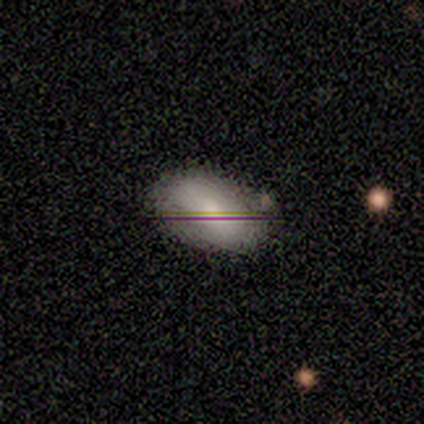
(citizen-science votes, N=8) Q: Smooth or featured?
A: featured or disk (38%); tied with: star or artifact (38%)
Q: Edge-on disk?
A: no (100%)
Q: Bar?
A: strong (33%); tied with: weak (33%); no (33%)
Q: Spiral arms?
A: yes (67%); runner-up: no (33%)
Q: Spiral winding?
A: tight (50%); tied with: medium (50%)
Q: Spiral arm count?
A: 2 (50%); tied with: more than 4 (50%)
Q: Bulge size?
A: moderate (33%); tied with: small (33%); none (33%)
Q: Merging?
A: none (100%)